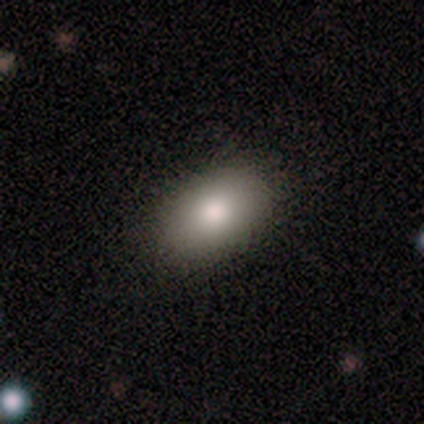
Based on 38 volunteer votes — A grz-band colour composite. It shows a smooth galaxy with no disk features (89%) that is in between round and cigar-shaped (94%). Merging: none (59%).